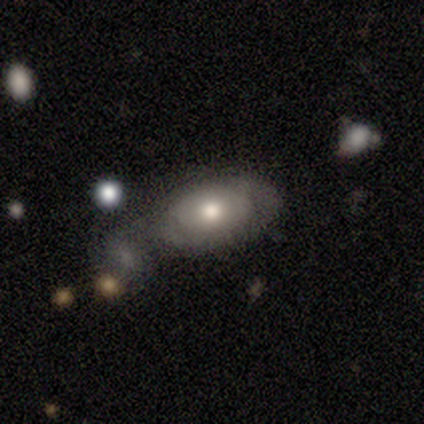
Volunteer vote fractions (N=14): Smooth or featured? featured or disk (64%)
Edge-on disk? no (100%)
Bar? no (89%)
Spiral arms? yes (56%)
Spiral winding? tight (80%)
Spiral arm count? can't tell (60%)
Bulge size? moderate (89%)
Merging? minor disturbance (36%)